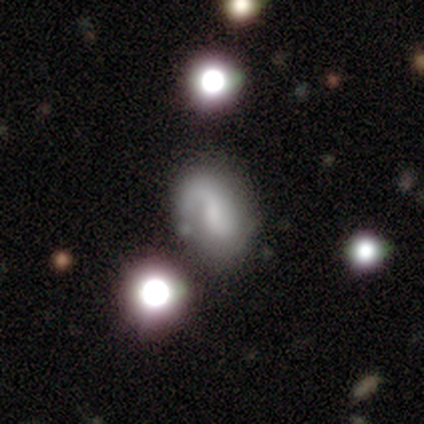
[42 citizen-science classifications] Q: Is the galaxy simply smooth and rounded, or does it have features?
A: featured or disk — 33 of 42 (79%).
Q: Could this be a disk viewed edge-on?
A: no — 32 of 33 (97%).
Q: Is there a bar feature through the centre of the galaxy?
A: weak — 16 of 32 (50%).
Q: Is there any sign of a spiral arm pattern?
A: yes — 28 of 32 (88%).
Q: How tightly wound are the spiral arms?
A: medium — 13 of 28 (46%).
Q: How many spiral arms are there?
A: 1 — 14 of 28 (50%).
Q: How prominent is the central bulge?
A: none — 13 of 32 (41%).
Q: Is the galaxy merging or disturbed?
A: minor disturbance — 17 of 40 (42%).